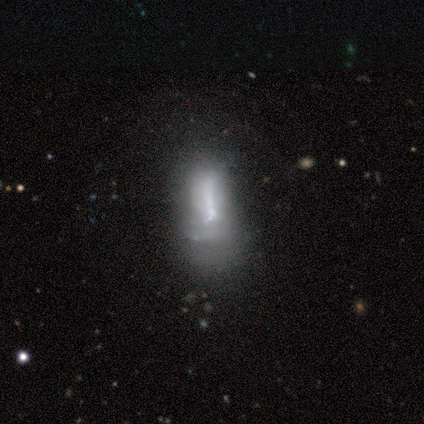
Smooth or featured? 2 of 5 (40%, tied with featured or disk) said smooth. How rounded? 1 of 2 (50%, tied with cigar-shaped) said in between. Merging? 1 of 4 (25%, tied with minor disturbance, major disturbance and merger) said none.